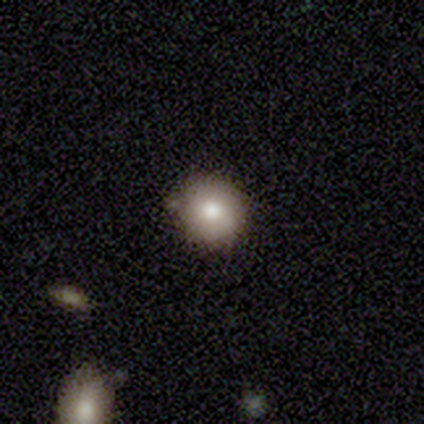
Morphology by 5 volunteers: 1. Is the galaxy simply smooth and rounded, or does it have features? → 80% smooth, 20% star or artifact, 0% featured or disk.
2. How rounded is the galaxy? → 100% round, 0% in between, 0% cigar-shaped.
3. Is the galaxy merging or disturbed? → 75% none, 25% minor disturbance, 0% major disturbance, 0% merger.